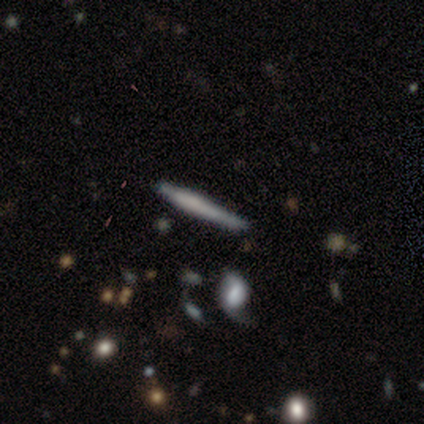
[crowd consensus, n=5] Smooth or featured? 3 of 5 (60%) said featured or disk. Edge-on disk? 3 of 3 (100%) said yes. Edge-on bulge? 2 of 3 (67%) said rounded. Merging? 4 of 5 (80%) said none.